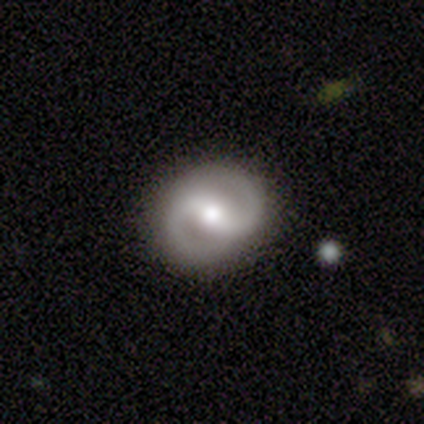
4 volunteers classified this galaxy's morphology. Smooth or featured?
  - featured or disk: 75% *
  - smooth: 25%
  - star or artifact: 0%
Edge-on disk?
  - no: 100% *
  - yes: 0%
Bar?
  - no: 67% *
  - weak: 33%
  - strong: 0%
Spiral arms?
  - yes: 100% *
  - no: 0%
Spiral winding?
  - medium: 100% *
  - tight: 0%
  - loose: 0%
Spiral arm count?
  - 2: 100% *
  - 1: 0%
  - 3: 0%
  - 4: 0%
  - more than 4: 0%
  - can't tell: 0%
Bulge size?
  - moderate: 100% *
  - dominant: 0%
  - large: 0%
  - small: 0%
  - none: 0%
Merging?
  - none: 100% *
  - minor disturbance: 0%
  - major disturbance: 0%
  - merger: 0%